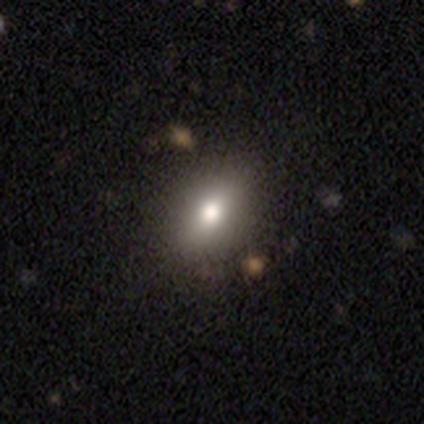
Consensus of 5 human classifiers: Smooth or featured? smooth (80%)
How rounded? in between (75%)
Merging? none (75%)